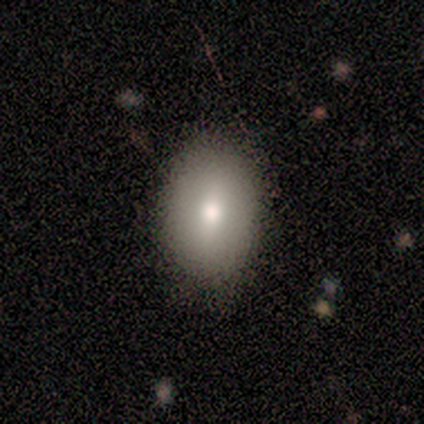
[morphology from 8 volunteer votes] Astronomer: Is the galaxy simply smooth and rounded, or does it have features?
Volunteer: smooth — 88%.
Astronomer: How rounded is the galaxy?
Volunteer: in between — 71%.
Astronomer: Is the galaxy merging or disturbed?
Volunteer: none — 100%.